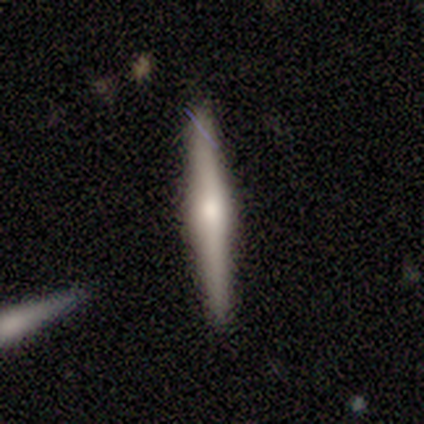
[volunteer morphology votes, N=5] smooth_or_featured: featured or disk (p=0.80) [alt: smooth p=0.20]
disk_edge_on: yes (p=1.00)
edge_on_bulge: rounded (p=0.75) [alt: boxy p=0.25]
merging: none (p=1.00)